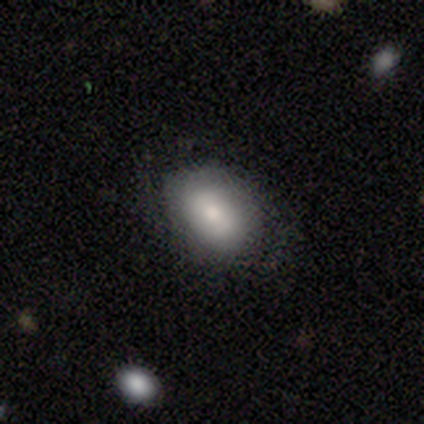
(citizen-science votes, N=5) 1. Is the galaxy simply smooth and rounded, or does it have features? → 80% smooth, 20% featured or disk, 0% star or artifact.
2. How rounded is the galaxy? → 100% in between, 0% round, 0% cigar-shaped.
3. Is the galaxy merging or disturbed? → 80% none, 20% minor disturbance, 0% major disturbance, 0% merger.